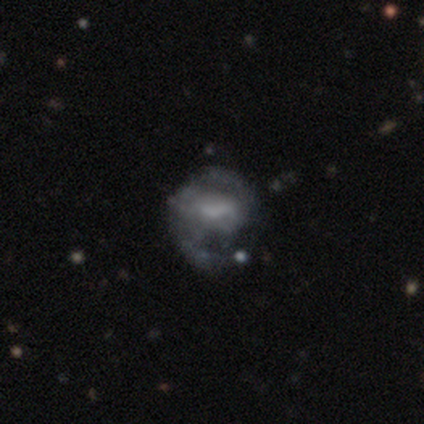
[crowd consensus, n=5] smooth_or_featured: featured or disk (p=1.00)
disk_edge_on: no (p=0.80) [alt: yes p=0.20]
bar: weak (p=0.50) [tied with: no p=0.50]
has_spiral_arms: yes (p=0.50) [tied with: no p=0.50]
spiral_winding: medium (p=1.00)
spiral_arm_count: 2 (p=1.00)
bulge_size: none (p=0.50) [alt: moderate p=0.25]
merging: major disturbance (p=0.60) [alt: none p=0.20]